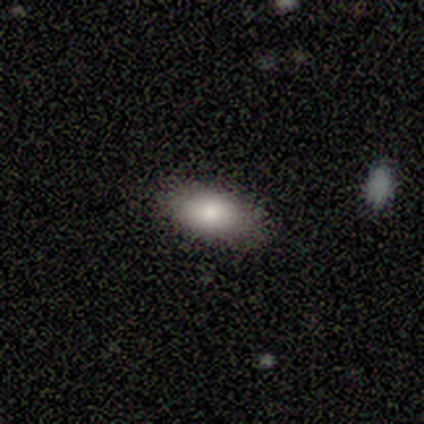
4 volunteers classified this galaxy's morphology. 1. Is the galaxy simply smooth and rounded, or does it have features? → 75% smooth, 25% featured or disk, 0% star or artifact.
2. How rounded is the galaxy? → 100% in between, 0% round, 0% cigar-shaped.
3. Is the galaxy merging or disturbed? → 100% none, 0% minor disturbance, 0% major disturbance, 0% merger.